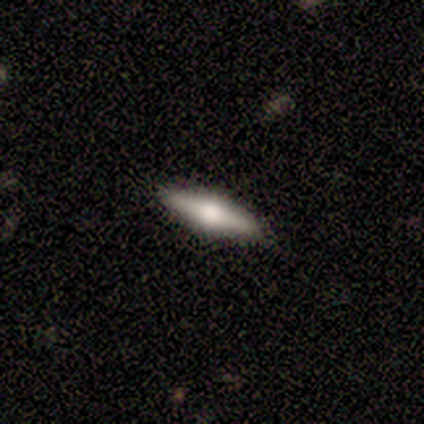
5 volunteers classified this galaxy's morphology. A smooth galaxy with no disk features (60%) that is cigar-shaped (67%). Merging: none (100%).